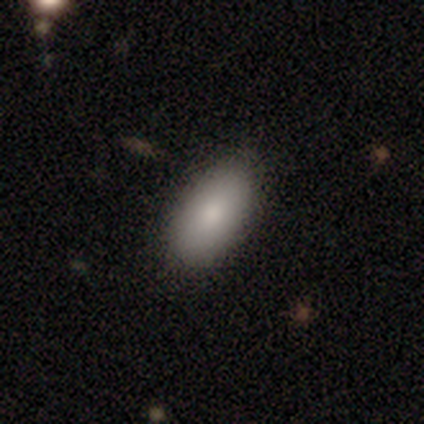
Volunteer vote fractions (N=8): Smooth or featured: smooth — 88% (featured or disk — 12%)
How rounded: in between — 86% (round — 14%)
Merging: none — 62% (minor disturbance — 38%)